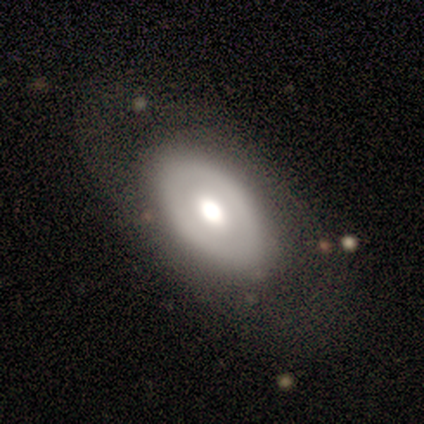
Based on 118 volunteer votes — A smooth galaxy with no disk features (52%) that is in between round and cigar-shaped (89%). Merging: none (54%).